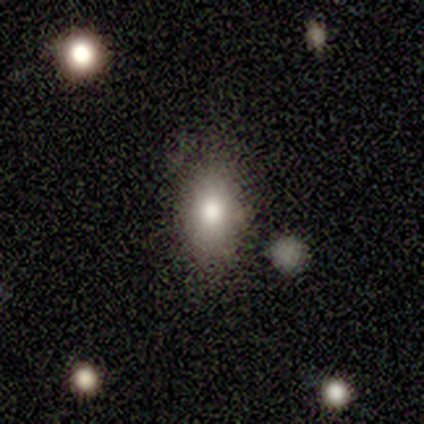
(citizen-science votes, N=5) Smooth or featured? 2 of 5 (40%, tied with featured or disk) said smooth. How rounded? 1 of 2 (50%, tied with in between) said round. Merging? 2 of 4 (50%, tied with minor disturbance) said none.